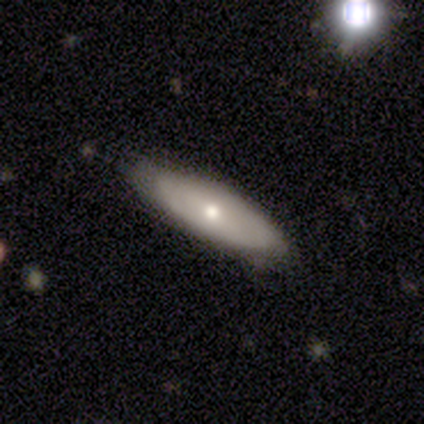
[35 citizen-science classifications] smooth-or-featured: featured or disk: 51% | smooth: 46% | star or artifact: 3%
  disk-edge-on: no: 56% | yes: 44%
    bar: no: 90% | weak: 10% | strong: 0%
    has-spiral-arms: no: 70% | yes: 30%
    bulge-size: moderate: 50% (tied) | small: 50% (tied) | dominant: 0% | large: 0% | none: 0%
  merging: none: 68% | minor disturbance: 29% | major disturbance: 3% | merger: 0%